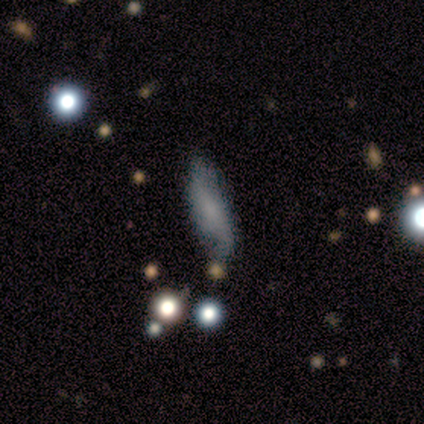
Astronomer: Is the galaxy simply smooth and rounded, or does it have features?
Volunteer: featured or disk — 50% (runner-up: smooth, 42%).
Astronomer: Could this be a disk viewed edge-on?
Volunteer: no — 85%.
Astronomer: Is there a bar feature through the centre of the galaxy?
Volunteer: no — 65%.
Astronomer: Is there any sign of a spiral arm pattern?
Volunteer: yes — 88%.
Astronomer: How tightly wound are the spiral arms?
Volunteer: loose — 73%.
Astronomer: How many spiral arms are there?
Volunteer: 2 — 100%.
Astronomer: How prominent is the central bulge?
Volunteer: none — 53% (runner-up: small, 41%).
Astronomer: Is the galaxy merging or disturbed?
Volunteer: none — 57% (runner-up: minor disturbance, 32%).